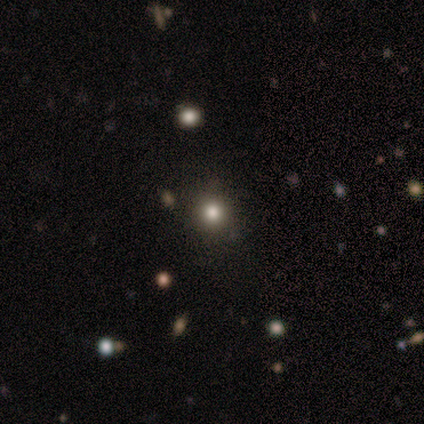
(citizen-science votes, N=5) smooth 60%, star or artifact 40%, featured or disk 0%. Down the decision tree: how rounded — round (67%); merging — none (100%).